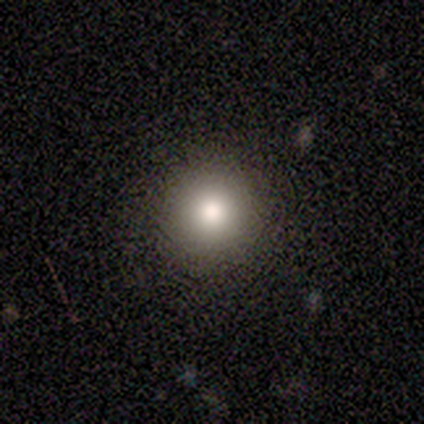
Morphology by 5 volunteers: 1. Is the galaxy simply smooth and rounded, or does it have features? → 60% smooth, 20% featured or disk, 20% star or artifact.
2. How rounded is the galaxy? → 100% round, 0% in between, 0% cigar-shaped.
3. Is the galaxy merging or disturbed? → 75% none, 25% merger, 0% minor disturbance, 0% major disturbance.